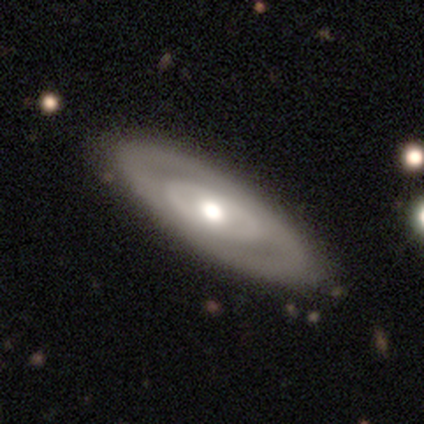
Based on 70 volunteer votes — featured or disk 59%, smooth 31%, star or artifact 10%. Down the decision tree: edge-on disk — no (80%); bar — no (82%); spiral arms — no (67%); bulge size — moderate (76%); merging — none (56%).